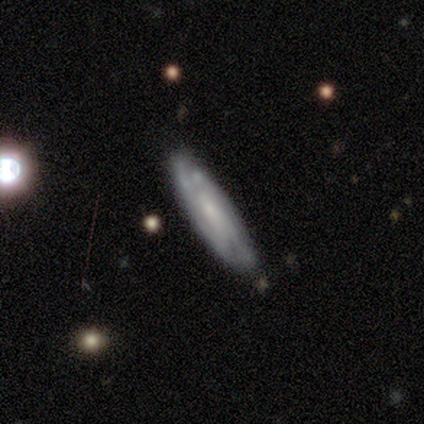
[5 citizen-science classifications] This is clearly a featured or disk galaxy (80%). It is possibly viewed edge-on (50%, tied with no). Edge-on bulge: clearly none (100%). Merging: clearly none (100%).